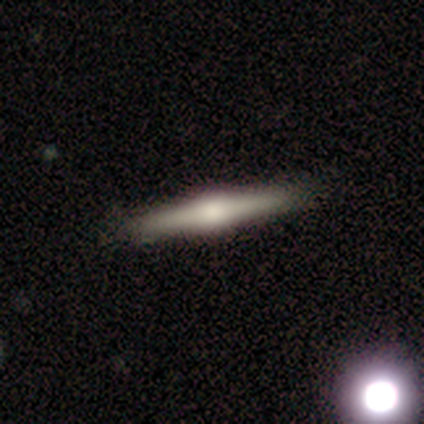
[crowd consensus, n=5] Q: Smooth or featured?
A: featured or disk (80%); runner-up: smooth (20%)
Q: Edge-on disk?
A: yes (100%)
Q: Edge-on bulge?
A: boxy (50%); tied with: rounded (50%)
Q: Merging?
A: none (100%)